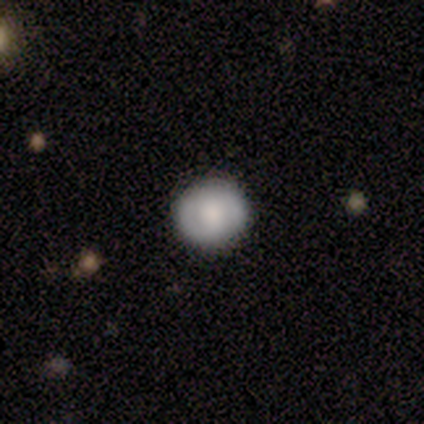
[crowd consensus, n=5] Smooth or featured? 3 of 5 (60%) said smooth. How rounded? 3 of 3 (100%) said round. Merging? 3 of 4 (75%) said none.